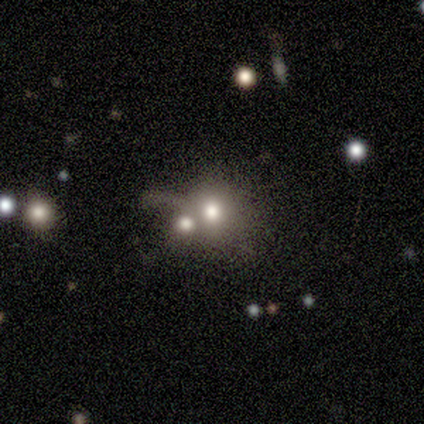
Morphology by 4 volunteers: A smooth galaxy with no disk features (50%, tied with star or artifact) that is round (100%). Merging: merger (100%).